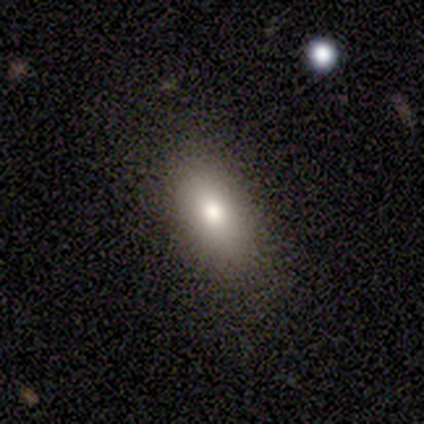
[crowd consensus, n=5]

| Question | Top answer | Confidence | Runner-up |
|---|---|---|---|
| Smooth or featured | smooth | 100% | — |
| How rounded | in between | 100% | — |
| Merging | none | 100% | — |